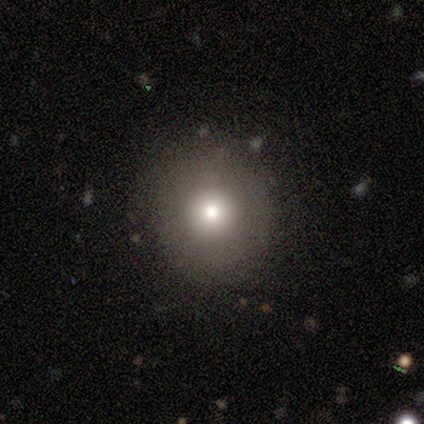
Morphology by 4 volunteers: Smooth or featured: smooth — 50% (featured or disk — 25%)
How rounded: round — 100%
Merging: none — 67% (minor disturbance — 33%)